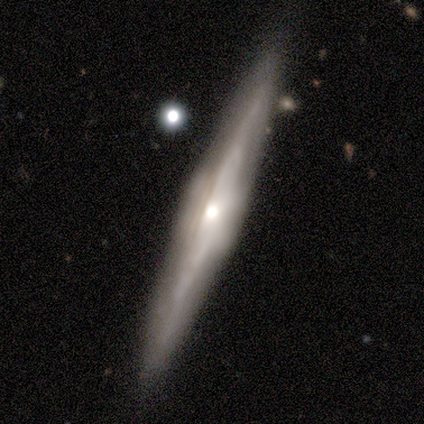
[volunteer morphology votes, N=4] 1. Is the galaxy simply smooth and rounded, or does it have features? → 100% featured or disk, 0% smooth, 0% star or artifact.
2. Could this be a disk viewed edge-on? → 100% yes, 0% no.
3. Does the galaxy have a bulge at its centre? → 50% rounded, 25% boxy, 25% none.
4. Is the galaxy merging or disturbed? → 50% none (tied), 50% minor disturbance (tied), 0% major disturbance, 0% merger.